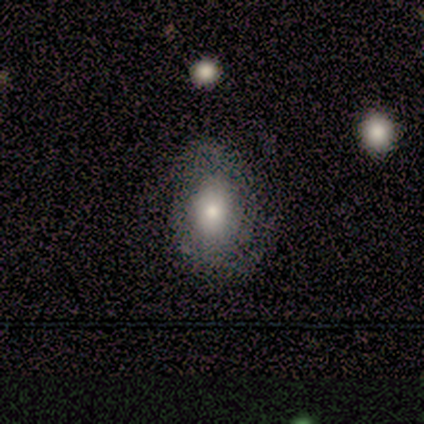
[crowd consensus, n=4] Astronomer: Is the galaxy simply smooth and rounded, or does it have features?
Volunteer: featured or disk — 50%.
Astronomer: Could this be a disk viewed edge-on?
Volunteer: no — 100%.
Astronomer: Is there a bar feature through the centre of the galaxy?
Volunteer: weak — 50%, tied with no at 50%.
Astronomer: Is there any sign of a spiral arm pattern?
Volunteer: yes — 50%, tied with no at 50%.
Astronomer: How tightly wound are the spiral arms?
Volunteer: tight — 100%.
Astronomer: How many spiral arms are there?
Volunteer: can't tell — 100%.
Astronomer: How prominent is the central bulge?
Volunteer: large — 50%, tied with moderate at 50%.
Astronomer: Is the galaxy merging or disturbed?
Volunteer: minor disturbance — 67%.